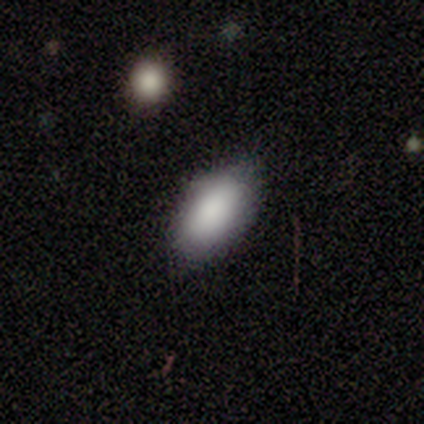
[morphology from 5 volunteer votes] Smooth or featured? 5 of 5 (100%) said smooth. How rounded? 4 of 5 (80%) said in between. Merging? 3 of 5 (60%) said none.